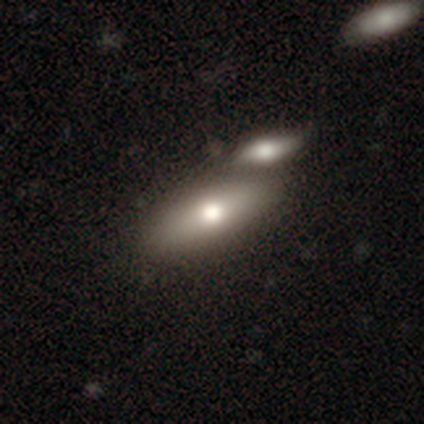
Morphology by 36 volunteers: Smooth or featured? smooth (75%)
How rounded? in between (74%)
Merging? merger (62%)